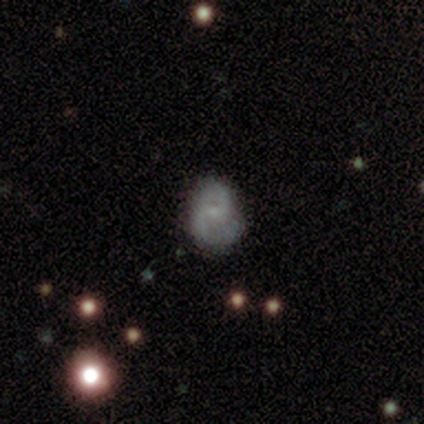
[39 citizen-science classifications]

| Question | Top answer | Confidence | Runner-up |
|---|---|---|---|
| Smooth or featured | featured or disk | 54% | smooth (38%) |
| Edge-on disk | no | 100% | — |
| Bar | no | 71% | weak (24%) |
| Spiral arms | yes | 90% | no (10%) |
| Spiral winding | loose | 47% | medium (32%) |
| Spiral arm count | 2 | 84% | can't tell (11%) |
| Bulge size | small | 71% | none (19%) |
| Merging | none | 53% | minor disturbance (44%) |